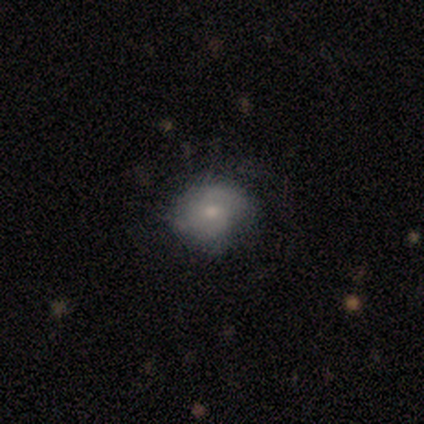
This appears to be a featured or disk galaxy (100%) with a weak bar (50%, tied with no), 2 (50%) medium (75%) spiral arms (100%) and a small central bulge (75%). Merging: none (100%).